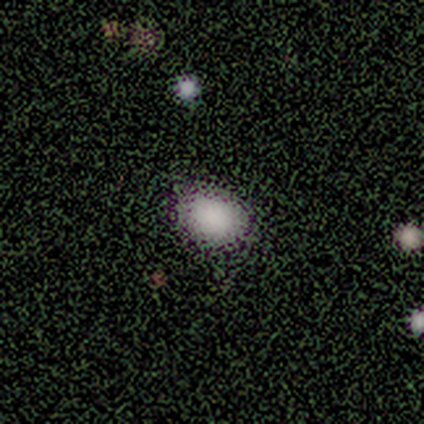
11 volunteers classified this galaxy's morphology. smooth_or_featured: smooth (p=1.00)
how_rounded: in between (p=0.73) [alt: round p=0.27]
merging: none (p=0.82) [alt: minor disturbance p=0.09]